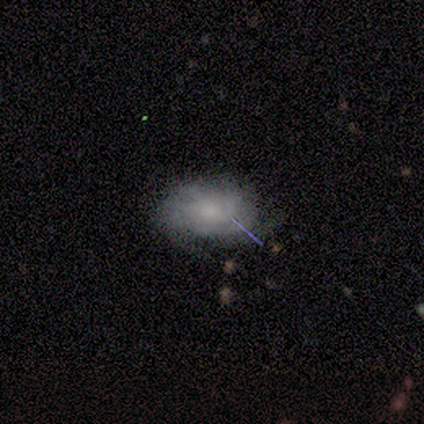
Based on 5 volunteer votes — Q: Smooth or featured?
A: smooth (40%); tied with: featured or disk (40%)
Q: How rounded?
A: in between (100%)
Q: Merging?
A: minor disturbance (75%); runner-up: none (25%)